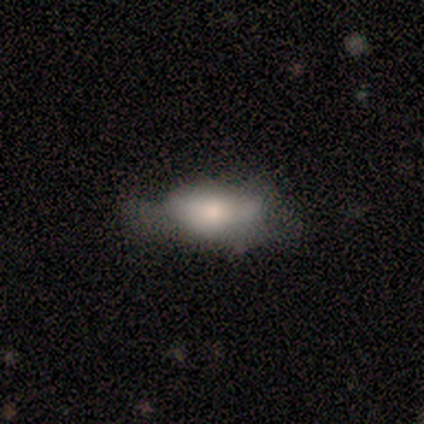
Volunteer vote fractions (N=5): A smooth galaxy with no disk features (60%) that is in between round and cigar-shaped (100%). Merging: none (50%).